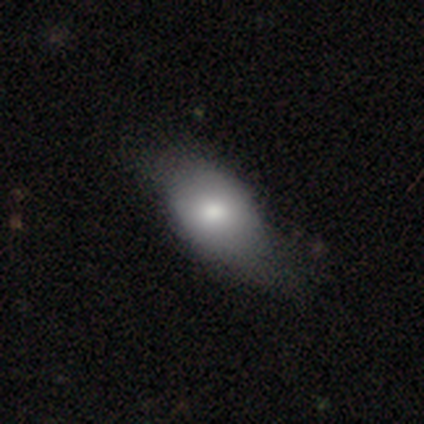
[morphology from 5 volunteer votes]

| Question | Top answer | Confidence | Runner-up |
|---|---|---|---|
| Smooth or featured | smooth | 80% | star or artifact (20%) |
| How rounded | in between | 100% | — |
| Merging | minor disturbance | 50% | none (25%) |